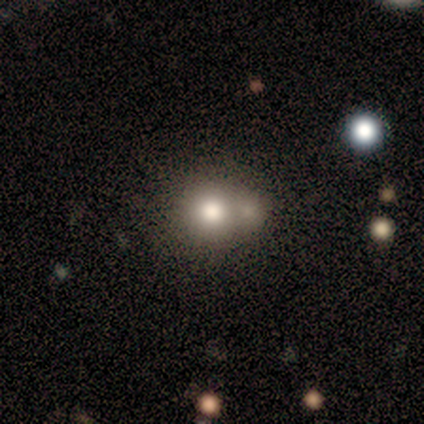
Smooth or featured? smooth (91%)
How rounded? round (90%)
Merging? merger (36%)